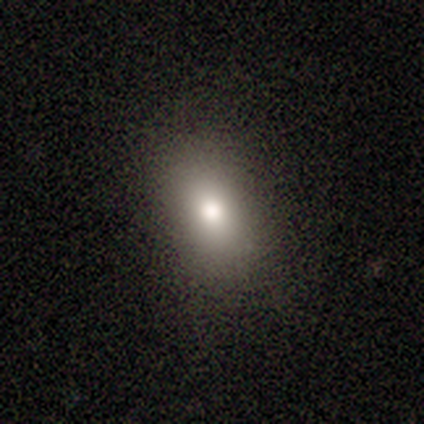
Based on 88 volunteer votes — This appears to be a smooth galaxy with no disk features (80%) that is in between round and cigar-shaped (77%). Merging: none (86%).